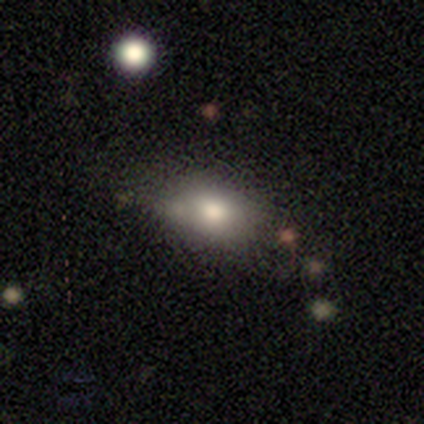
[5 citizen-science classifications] Q: Smooth or featured?
A: smooth (40%); tied with: star or artifact (40%)
Q: How rounded?
A: in between (100%)
Q: Merging?
A: minor disturbance (67%); runner-up: none (33%)